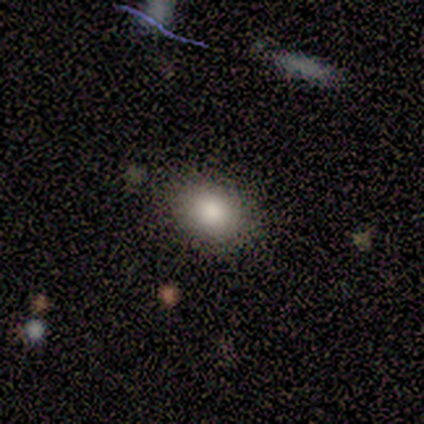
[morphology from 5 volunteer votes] Volunteers were most divided on "how rounded": in between: 60%, round: 40%, cigar-shaped: 0%. More confident: smooth or featured — smooth (100%); merging — none (100%).